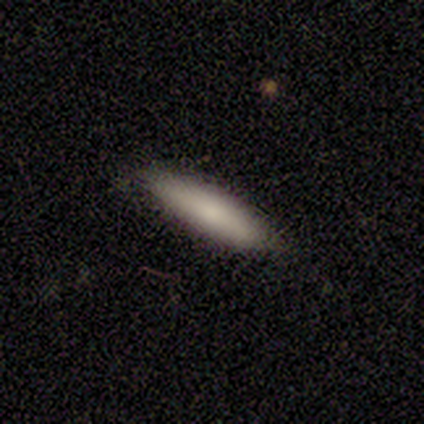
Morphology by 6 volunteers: Overall: smooth (83%). How rounded: cigar-shaped (100%). Merging: none (100%).